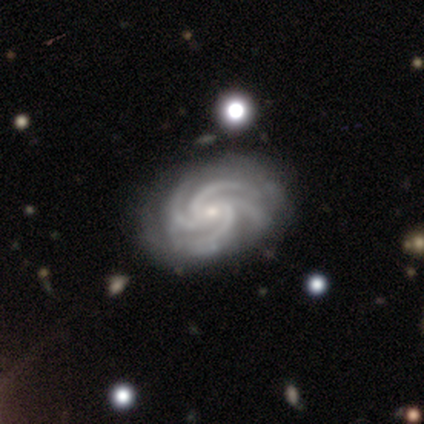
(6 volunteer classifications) This appears to be a featured or disk galaxy (100%) with no bar (83%), 4 (100%) tight (100%) spiral arms (100%) and a small central bulge (83%). Merging: none (83%).